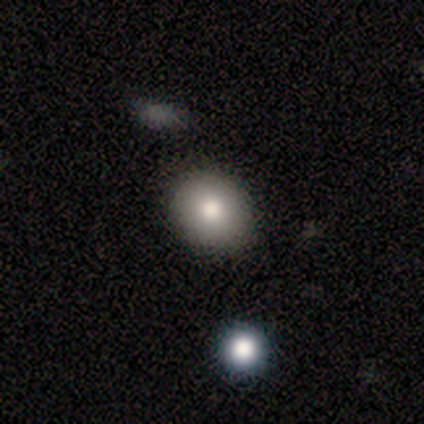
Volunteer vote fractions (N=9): This appears to be a smooth galaxy with no disk features (100%) that is round (67%). Merging: none (89%).